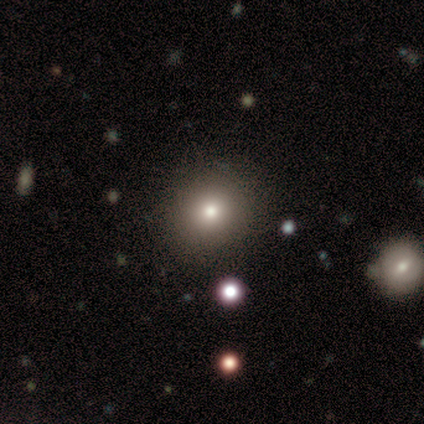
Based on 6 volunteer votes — This appears to be a featured or disk galaxy (67%) with no bar (75%), no spiral arms (75%) and a moderate central bulge (50%). Merging: none (80%).